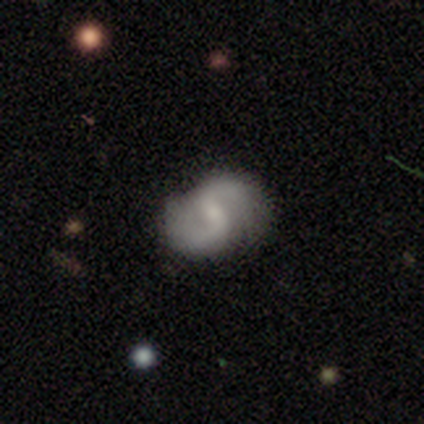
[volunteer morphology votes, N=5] featured or disk 100%, smooth 0%, star or artifact 0%. Down the decision tree: edge-on disk — no (100%); bar — weak (60%); spiral arms — yes (100%); spiral arm count — 2 (80%); spiral winding — loose (60%); bulge size — small (80%); merging — none (80%).